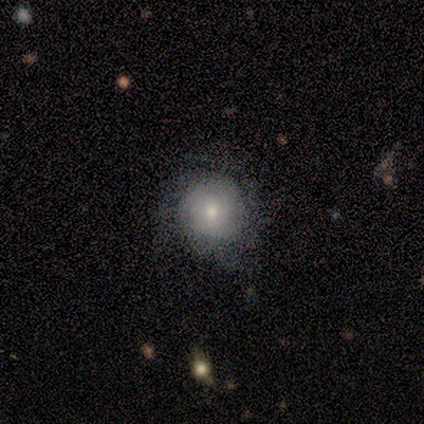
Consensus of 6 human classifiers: smooth-or-featured: smooth: 50% (tied) | featured or disk: 50% (tied) | star or artifact: 0%
  how-rounded: round: 67% | in between: 33% | cigar-shaped: 0%
  merging: minor disturbance: 50% | none: 33% | major disturbance: 17% | merger: 0%